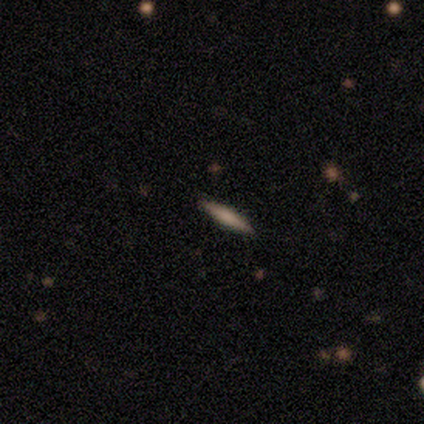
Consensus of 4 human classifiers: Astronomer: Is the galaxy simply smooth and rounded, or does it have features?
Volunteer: smooth — 75%.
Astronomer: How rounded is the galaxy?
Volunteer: cigar-shaped — 67%.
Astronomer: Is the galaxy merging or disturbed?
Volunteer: none — 100%.